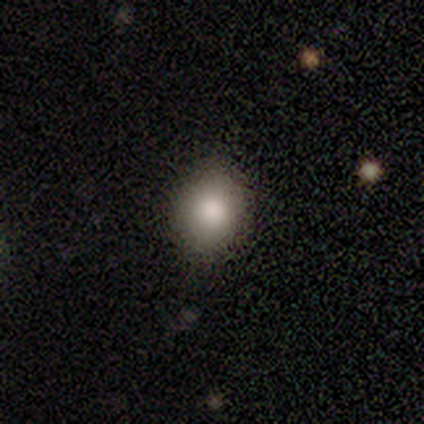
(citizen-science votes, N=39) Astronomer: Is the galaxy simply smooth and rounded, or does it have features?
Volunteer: smooth — 92%.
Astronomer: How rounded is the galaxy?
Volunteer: round — 69%.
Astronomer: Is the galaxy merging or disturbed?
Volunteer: none — 84%.